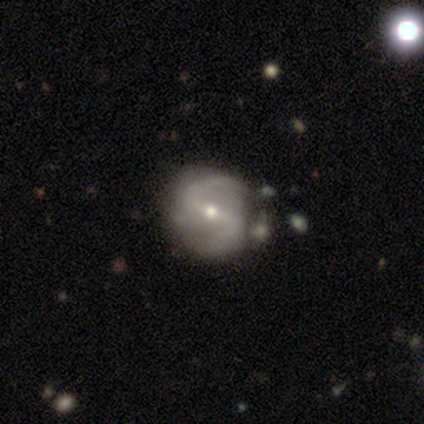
Morphology: type=featured or disk (100%); edge-on=no (100%); bar=strong (60%); spiral arms=yes (100%); winding=medium (60%); arm count=2 (100%); bulge=small (80%); merging=none (80%).